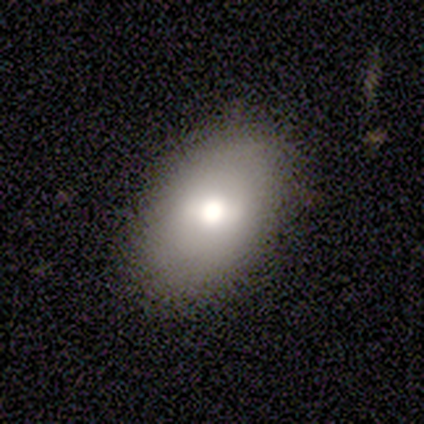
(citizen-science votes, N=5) Smooth or featured? smooth (60%)
How rounded? in between (67%)
Merging? none (100%)